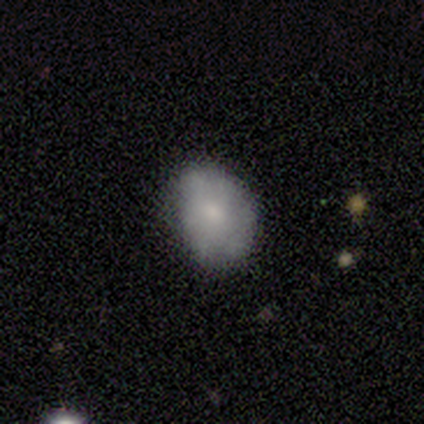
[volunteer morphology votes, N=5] Smooth or featured: smooth — 100%
How rounded: in between — 100%
Merging: none — 60% (minor disturbance — 20%)